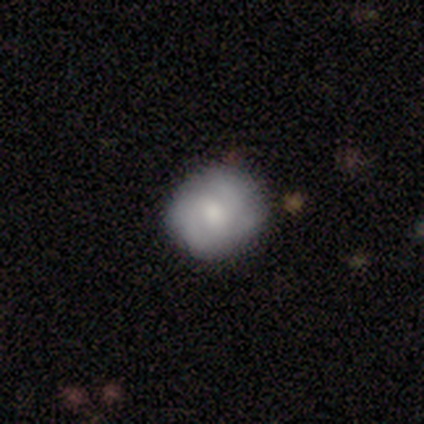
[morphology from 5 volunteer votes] smooth-or-featured: featured or disk: 60% | smooth: 20% | star or artifact: 20%
  disk-edge-on: no: 100% | yes: 0%
    bar: no: 67% | weak: 33% | strong: 0%
    has-spiral-arms: yes: 100% | no: 0%
      spiral-winding: tight: 33% (tied) | medium: 33% (tied) | loose: 33% (tied)
      spiral-arm-count: 3: 67% | 2: 33% | 1: 0% | 4: 0% | more than 4: 0% | can't tell: 0%
    bulge-size: moderate: 67% | small: 33% | dominant: 0% | large: 0% | none: 0%
  merging: none: 50% (tied) | minor disturbance: 50% (tied) | major disturbance: 0% | merger: 0%